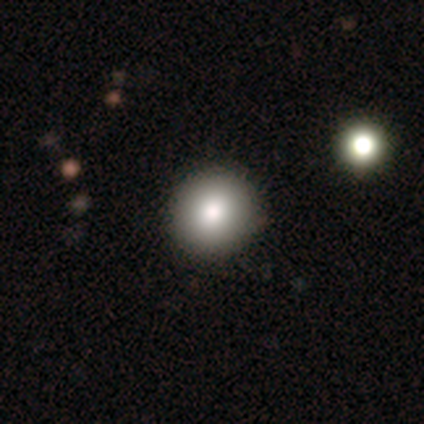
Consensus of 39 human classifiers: smooth-or-featured: smooth: 85% | star or artifact: 10% | featured or disk: 5%
  how-rounded: round: 91% | in between: 9% | cigar-shaped: 0%
  merging: none: 97% | minor disturbance: 3% | major disturbance: 0% | merger: 0%